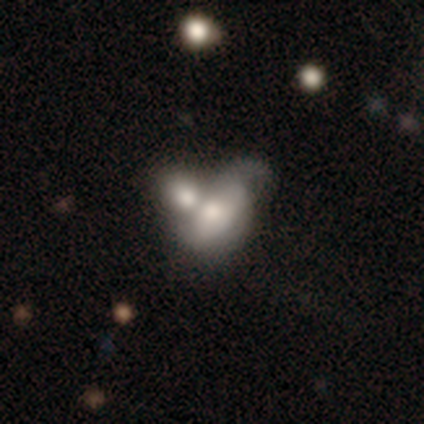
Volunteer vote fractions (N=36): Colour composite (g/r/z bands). It shows a smooth galaxy with no disk features (64%) that is in between round and cigar-shaped (83%). Merging: merger (53%).